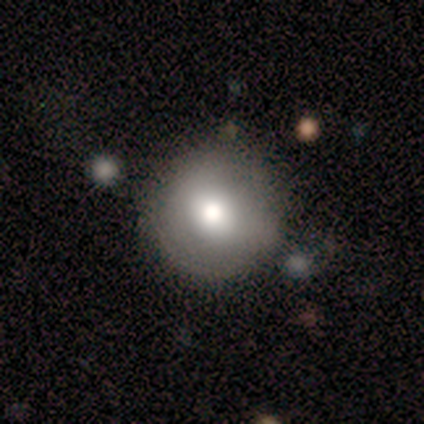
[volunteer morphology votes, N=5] This appears to be a smooth galaxy with no disk features (80%) that is round (75%). Merging: none (80%).